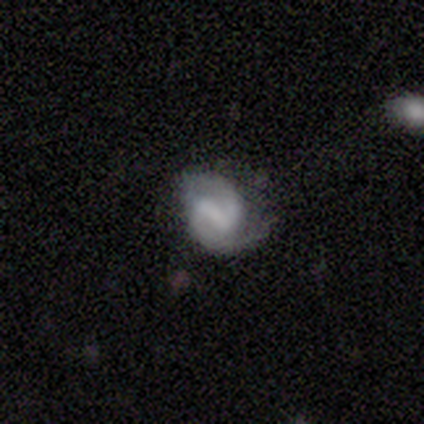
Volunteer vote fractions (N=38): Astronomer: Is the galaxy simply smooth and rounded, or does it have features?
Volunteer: featured or disk — 76%.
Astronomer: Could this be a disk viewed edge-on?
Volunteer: no — 100%.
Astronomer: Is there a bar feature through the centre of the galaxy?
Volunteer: strong — 55% (runner-up: weak, 38%).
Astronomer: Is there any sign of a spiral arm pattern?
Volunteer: yes — 93%.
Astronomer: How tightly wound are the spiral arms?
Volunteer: medium — 63%.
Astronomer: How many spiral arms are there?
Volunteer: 2 — 96%.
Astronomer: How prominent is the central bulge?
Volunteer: none — 59%.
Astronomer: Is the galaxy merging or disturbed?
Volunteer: none — 49% (runner-up: minor disturbance, 35%).